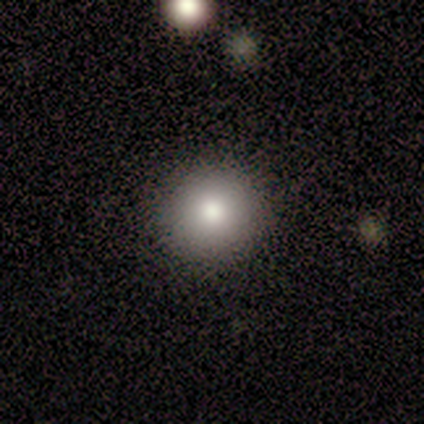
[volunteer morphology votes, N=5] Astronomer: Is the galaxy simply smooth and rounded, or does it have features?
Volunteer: smooth — 80%.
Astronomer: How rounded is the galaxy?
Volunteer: round — 100%.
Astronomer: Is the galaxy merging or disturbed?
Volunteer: none — 100%.